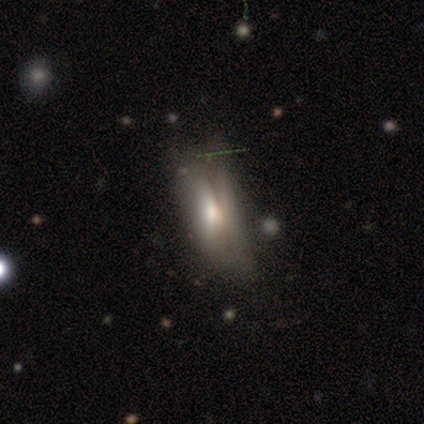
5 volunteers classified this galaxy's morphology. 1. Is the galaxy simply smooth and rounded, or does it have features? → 60% smooth, 40% featured or disk, 0% star or artifact.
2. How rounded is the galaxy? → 67% in between, 33% cigar-shaped, 0% round.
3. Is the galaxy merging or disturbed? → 80% minor disturbance, 20% none, 0% major disturbance, 0% merger.